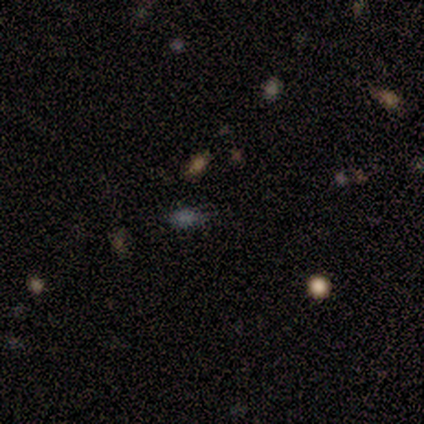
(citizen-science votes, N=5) A smooth galaxy with no disk features (80%) that is in between round and cigar-shaped (100%).

Vote fractions:
- Smooth or featured? smooth: 80% / star or artifact: 20% / featured or disk: 0%
- How rounded? in between: 100% / round: 0% / cigar-shaped: 0%
- Merging? none: 100% / minor disturbance: 0% / major disturbance: 0% / merger: 0%